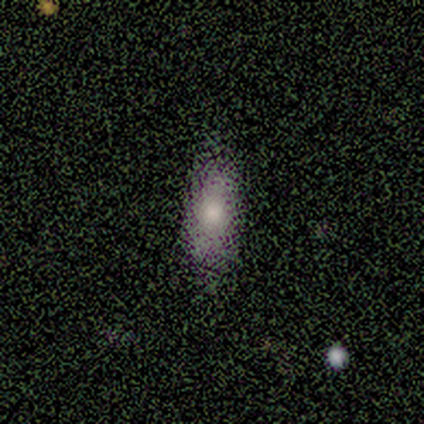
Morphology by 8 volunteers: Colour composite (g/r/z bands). It shows a smooth galaxy with no disk features (88%) that is in between round and cigar-shaped (71%). Merging: none (86%).